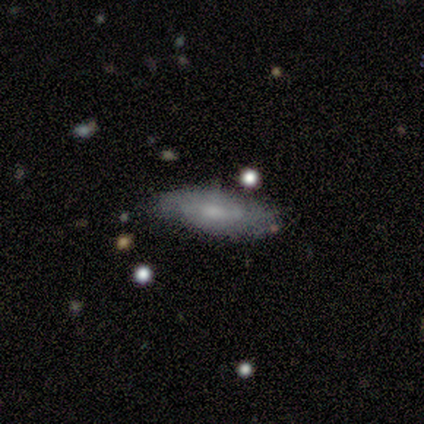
Overall: smooth (57%; featured or disk 43%). How rounded: in between (100%). Merging: minor disturbance (57%; none 43%).